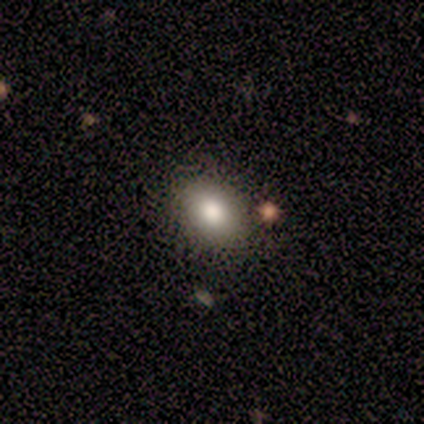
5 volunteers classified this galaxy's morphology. Q: Smooth or featured?
A: smooth (100%)
Q: How rounded?
A: in between (100%)
Q: Merging?
A: none (80%); runner-up: minor disturbance (20%)